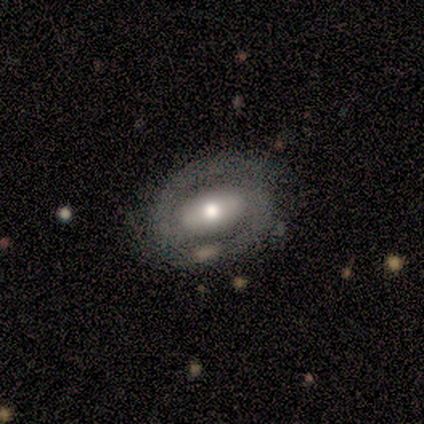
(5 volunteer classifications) smooth_or_featured: featured or disk (p=0.60) [alt: smooth p=0.40]
disk_edge_on: no (p=1.00)
bar: no (p=0.67) [alt: weak p=0.33]
has_spiral_arms: yes (p=0.67) [alt: no p=0.33]
spiral_winding: tight (p=0.50) [tied with: loose p=0.50]
spiral_arm_count: 2 (p=1.00)
bulge_size: moderate (p=0.67) [alt: small p=0.33]
merging: none (p=0.60) [alt: minor disturbance p=0.40]